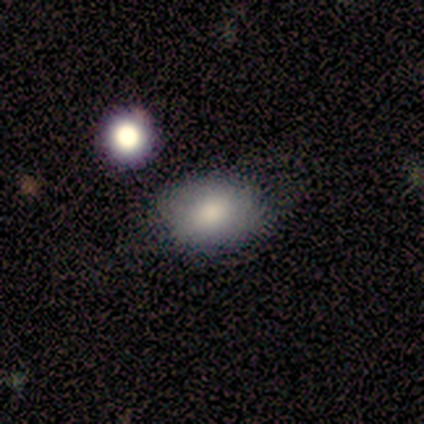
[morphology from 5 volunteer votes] smooth 80%, star or artifact 20%, featured or disk 0%. Down the decision tree: how rounded — in between (75%); merging — none (50%).